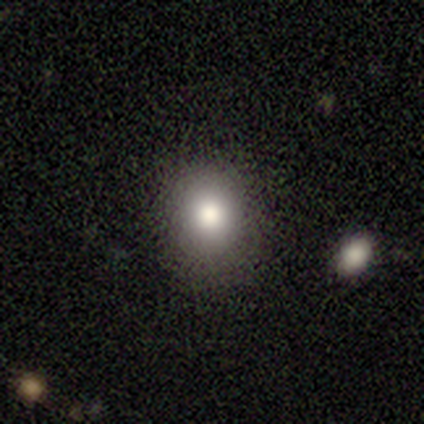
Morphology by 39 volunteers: smooth_or_featured: smooth (p=0.69) [alt: star or artifact p=0.18]
how_rounded: round (p=0.63) [alt: in between p=0.37]
merging: none (p=0.88) [alt: minor disturbance p=0.06]